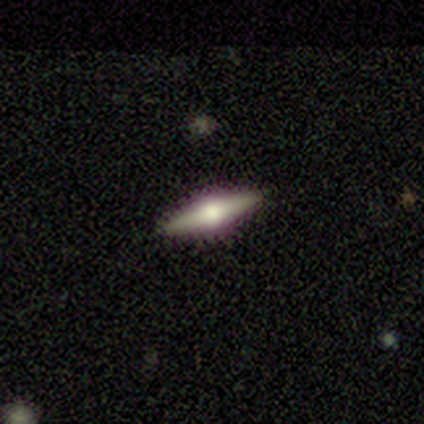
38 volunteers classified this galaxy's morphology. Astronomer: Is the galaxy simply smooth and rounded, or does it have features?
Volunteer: featured or disk — 82%.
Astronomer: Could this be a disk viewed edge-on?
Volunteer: yes — 97%.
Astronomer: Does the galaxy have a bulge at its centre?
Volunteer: rounded — 100%.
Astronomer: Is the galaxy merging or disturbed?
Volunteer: none — 92%.